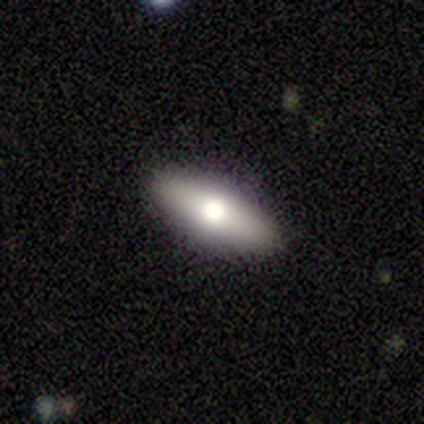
Smooth or featured? smooth (60%)
How rounded? in between (67%)
Merging? none (100%)